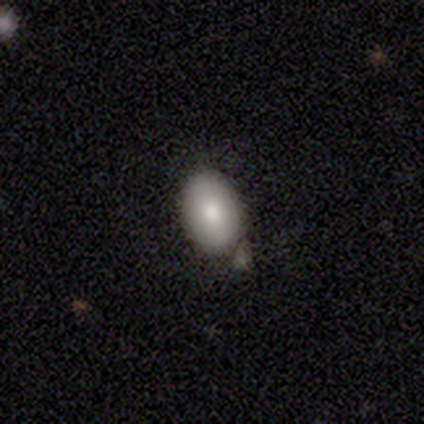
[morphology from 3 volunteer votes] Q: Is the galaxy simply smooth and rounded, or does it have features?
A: smooth — 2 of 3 (67%).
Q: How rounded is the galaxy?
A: in between — 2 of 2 (100%).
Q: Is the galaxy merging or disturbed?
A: minor disturbance — 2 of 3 (67%).